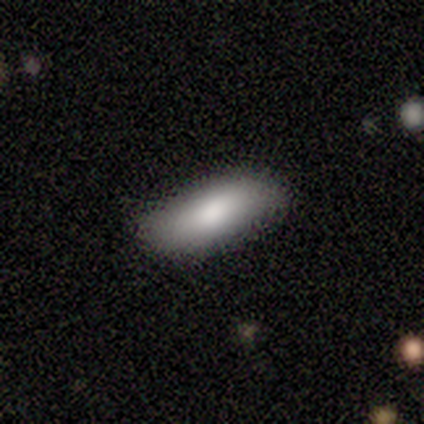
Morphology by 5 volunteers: Smooth or featured? 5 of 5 (100%) said smooth. How rounded? 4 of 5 (80%) said in between. Merging? 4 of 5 (80%) said none.